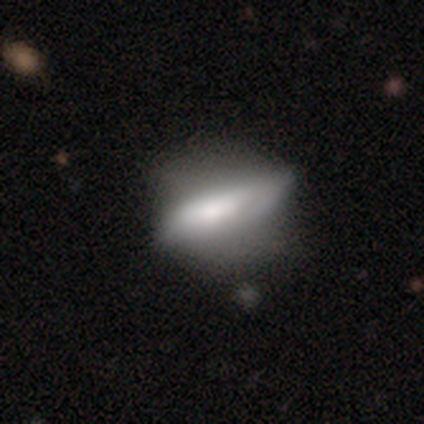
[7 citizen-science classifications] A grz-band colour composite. It shows a featured or disk galaxy (57%) with a strong bar (33%, tied with weak and no), no spiral arms (100%) and a small central bulge (67%). Merging: minor disturbance (71%).